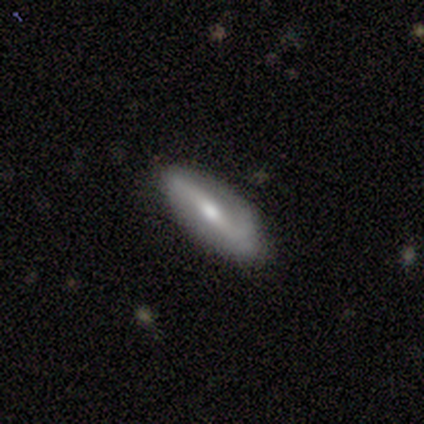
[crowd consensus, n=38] Smooth or featured? 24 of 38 (63%) said featured or disk. Edge-on disk? 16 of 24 (67%) said no. Bar? 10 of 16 (62%) said strong. Spiral arms? 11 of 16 (69%) said yes. Spiral winding? 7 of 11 (64%) said loose. Spiral arm count? 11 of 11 (100%) said 2. Bulge size? 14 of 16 (88%) said moderate. Merging? 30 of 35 (86%) said none.